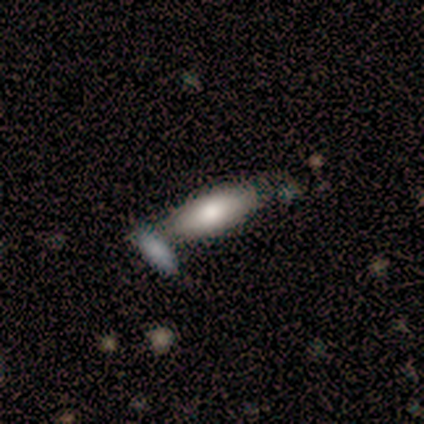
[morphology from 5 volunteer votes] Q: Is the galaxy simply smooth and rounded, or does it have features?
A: smooth — 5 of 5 (100%).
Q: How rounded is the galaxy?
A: in between — 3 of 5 (60%).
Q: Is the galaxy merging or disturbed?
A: none — 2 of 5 (40%).